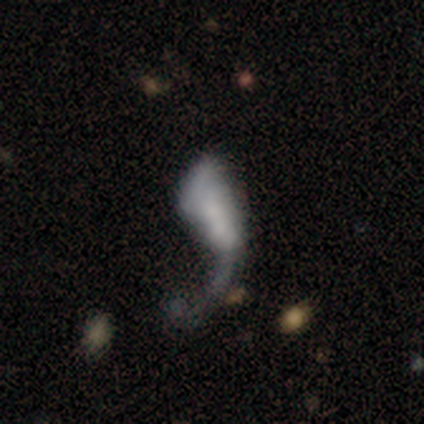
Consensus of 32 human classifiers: featured or disk 47%, smooth 34%, star or artifact 19%. Down the decision tree: edge-on disk — no (100%); bar — no (73%); spiral arms — no (53%); bulge size — none (33%); merging — major disturbance (58%).